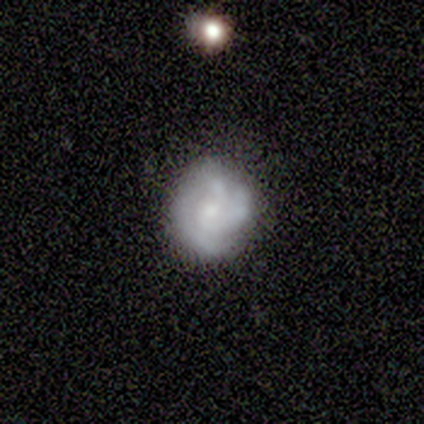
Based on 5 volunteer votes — This is clearly a featured or disk galaxy (100%). It is clearly not viewed edge-on (100%). Bar: likely no (60%). Spiral arm pattern: clearly yes (80%). Spiral arm count: likely 2 (75%). Spiral winding: likely tight (75%). Central bulge: likely small (60%). Merging: clearly none (80%).